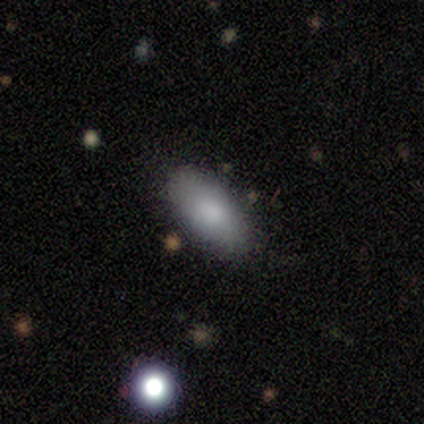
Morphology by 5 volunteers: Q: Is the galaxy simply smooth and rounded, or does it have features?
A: smooth — 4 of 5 (80%).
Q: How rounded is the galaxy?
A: in between — 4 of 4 (100%).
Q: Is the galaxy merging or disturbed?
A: none — 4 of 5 (80%).